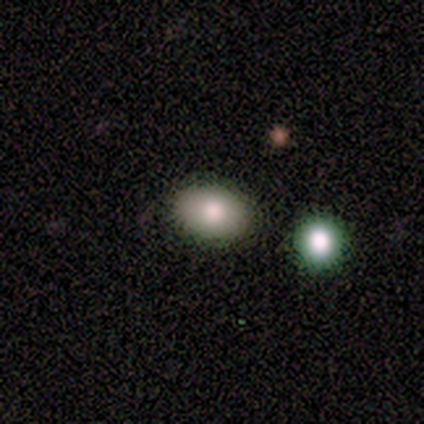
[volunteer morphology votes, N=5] smooth 100%, featured or disk 0%, star or artifact 0%. Down the decision tree: how rounded — in between (100%); merging — none (100%).